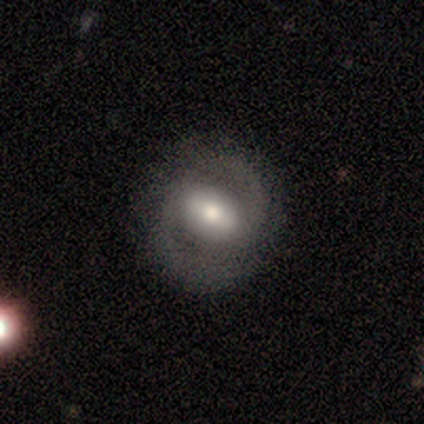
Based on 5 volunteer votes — Morphology: type=featured or disk (80%); edge-on=no (100%); bar=weak (50%); spiral arms=yes (100%); winding=medium (50%); arm count=2 (100%); bulge=moderate (75%); merging=none (80%).